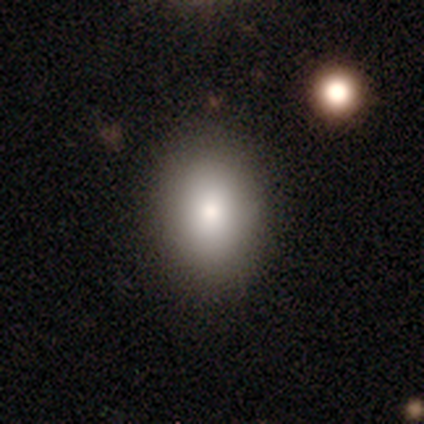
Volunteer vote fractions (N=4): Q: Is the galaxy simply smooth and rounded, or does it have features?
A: smooth — 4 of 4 (100%).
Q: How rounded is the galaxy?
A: in between — 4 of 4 (100%).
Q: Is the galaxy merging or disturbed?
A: none — 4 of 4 (100%).